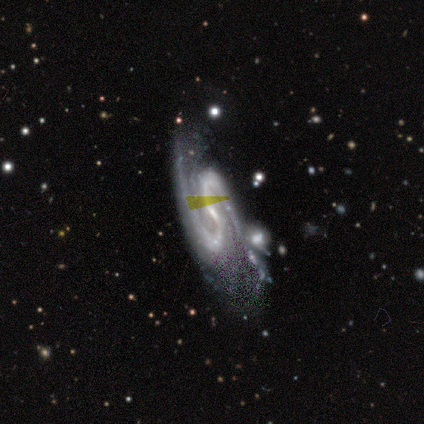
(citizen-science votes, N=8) Overall: featured or disk (100%). Edge-on disk: no (75%). Bar: strong (50%; no 33%). Spiral arms: yes (100%). Spiral arm count: 2 (83%). Spiral winding: medium (67%). Bulge size: small (67%; moderate 33%). Merging: none (50%, tied with minor disturbance).